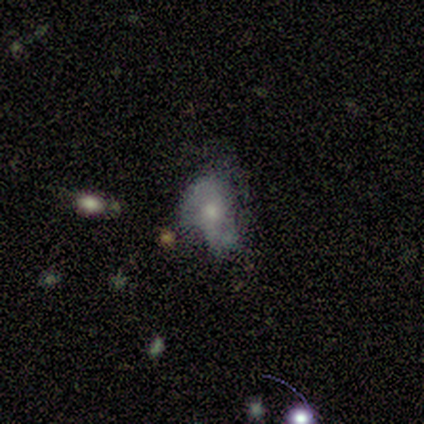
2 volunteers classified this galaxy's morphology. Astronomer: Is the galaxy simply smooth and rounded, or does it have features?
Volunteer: smooth — 100%.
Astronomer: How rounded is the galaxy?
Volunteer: round — 50%, tied with in between at 50%.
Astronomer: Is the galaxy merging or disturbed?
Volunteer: none — 50%, tied with major disturbance at 50%.